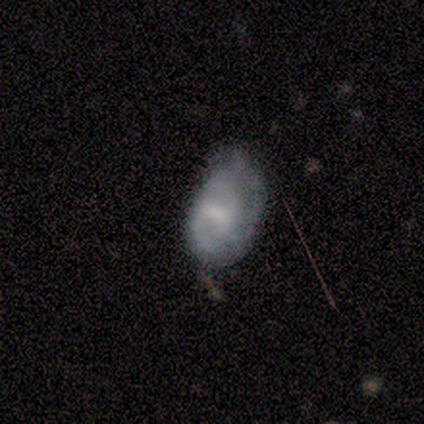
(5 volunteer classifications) Smooth or featured: smooth — 40% (tied with featured or disk — 40%)
How rounded: in between — 100%
Merging: minor disturbance — 75% (none — 25%)